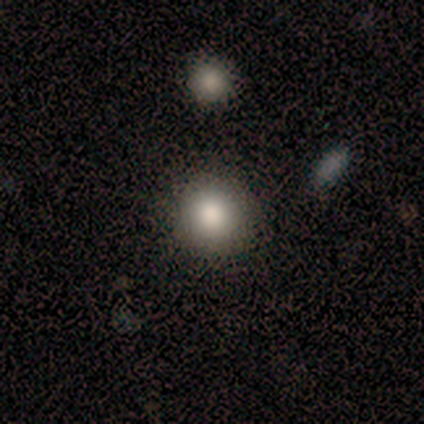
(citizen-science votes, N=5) smooth-or-featured: smooth: 80% | star or artifact: 20% | featured or disk: 0%
  how-rounded: round: 100% | in between: 0% | cigar-shaped: 0%
  merging: none: 100% | minor disturbance: 0% | major disturbance: 0% | merger: 0%